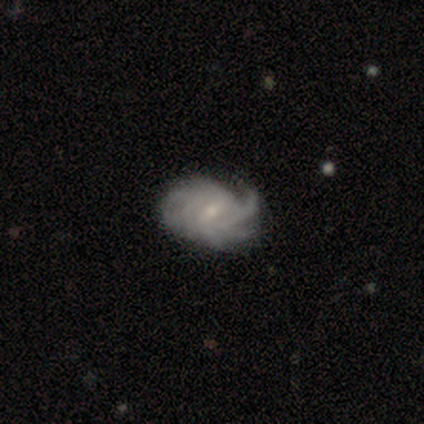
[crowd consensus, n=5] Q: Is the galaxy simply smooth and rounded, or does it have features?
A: featured or disk — 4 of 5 (80%).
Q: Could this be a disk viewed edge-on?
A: no — 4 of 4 (100%).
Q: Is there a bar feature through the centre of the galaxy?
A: strong — 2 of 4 (50%, tied with weak).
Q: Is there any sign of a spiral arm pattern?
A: yes — 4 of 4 (100%).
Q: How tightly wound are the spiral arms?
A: tight — 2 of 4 (50%, tied with medium).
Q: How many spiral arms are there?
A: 3 — 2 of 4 (50%).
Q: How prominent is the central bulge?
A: small — 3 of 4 (75%).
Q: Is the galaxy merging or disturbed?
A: major disturbance — 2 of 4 (50%).